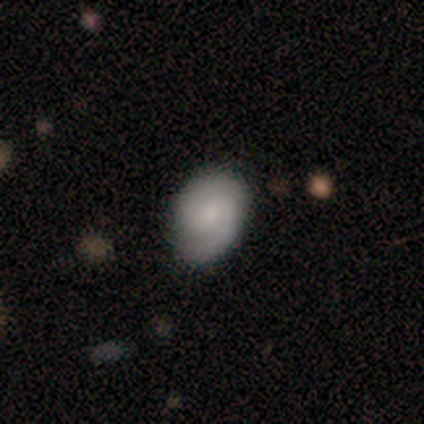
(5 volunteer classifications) Smooth or featured: featured or disk — 60% (smooth — 40%)
Edge-on disk: no — 67% (yes — 33%)
Bar: no — 100%
Spiral arms: yes — 100%
Spiral winding: tight — 100%
Spiral arm count: 1 — 50% (tied with 2 — 50%)
Bulge size: none — 100%
Merging: none — 80% (minor disturbance — 20%)